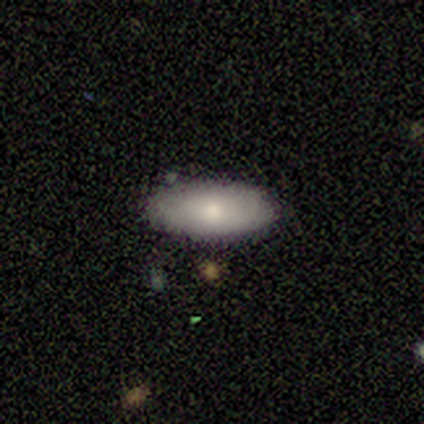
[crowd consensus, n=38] This is likely a smooth galaxy (71%). How rounded: clearly in between (89%). Merging: clearly none (83%).